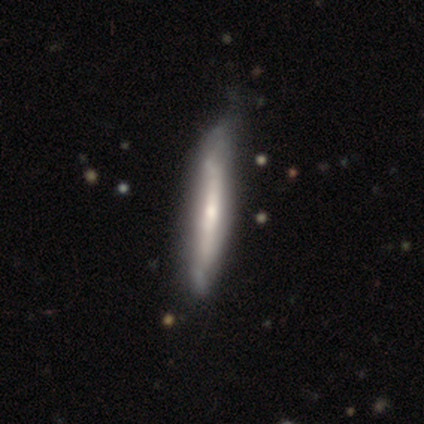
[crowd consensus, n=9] featured or disk 67%, smooth 33%, star or artifact 0%. Down the decision tree: edge-on disk — yes (83%); edge-on bulge — rounded (80%); merging — none (44%, tied with minor disturbance).